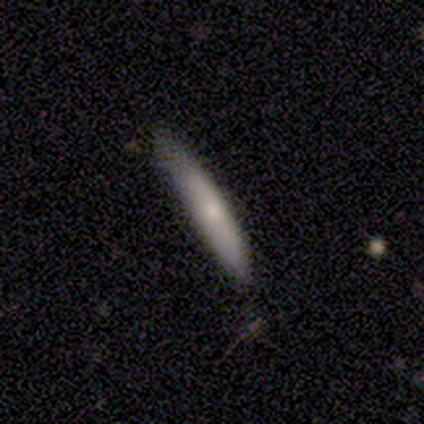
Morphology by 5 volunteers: This is likely a smooth galaxy (60%). How rounded: clearly cigar-shaped (100%). Merging: likely none (75%).